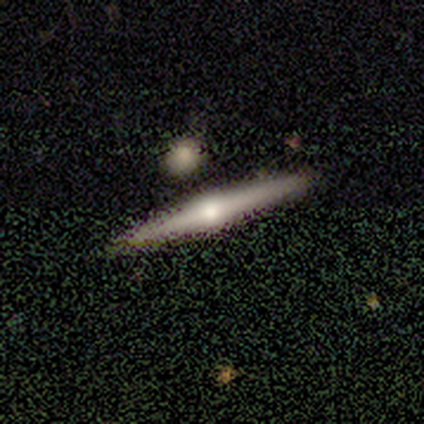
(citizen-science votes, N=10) Overall: featured or disk (80%). Edge-on disk: yes (100%). Edge-on bulge: rounded (75%). Merging: none (80%).